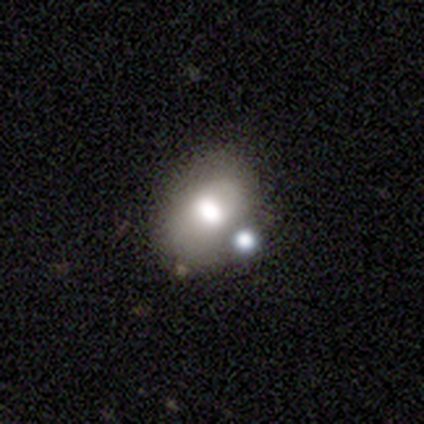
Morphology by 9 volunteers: This appears to be a smooth galaxy with no disk features (89%) that is in between round and cigar-shaped (75%). Merging: none (50%).